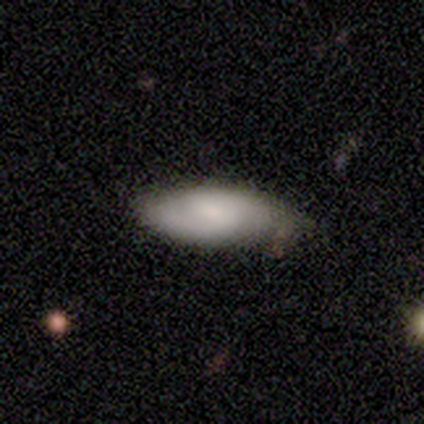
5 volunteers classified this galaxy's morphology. This appears to be a smooth galaxy with no disk features (60%) that is in between round and cigar-shaped (100%). Merging: none (100%).